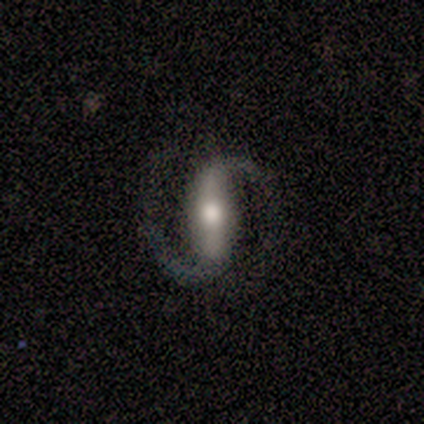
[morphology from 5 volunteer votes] Smooth or featured: featured or disk — 100%
Edge-on disk: no — 80% (yes — 20%)
Bar: strong — 100%
Spiral arms: yes — 100%
Spiral winding: medium — 75% (tight — 25%)
Spiral arm count: 2 — 100%
Bulge size: moderate — 75% (large — 25%)
Merging: none — 80% (major disturbance — 20%)